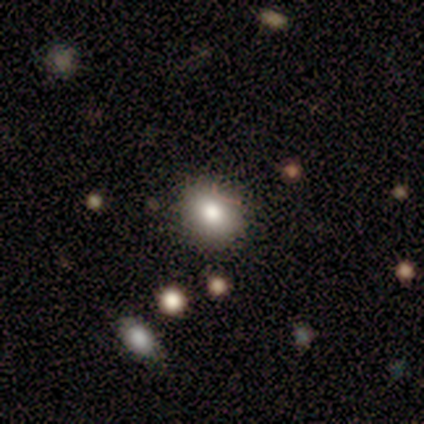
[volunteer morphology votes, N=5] smooth-or-featured: smooth: 80% | featured or disk: 20% | star or artifact: 0%
  how-rounded: round: 75% | in between: 25% | cigar-shaped: 0%
  merging: none: 80% | minor disturbance: 20% | major disturbance: 0% | merger: 0%